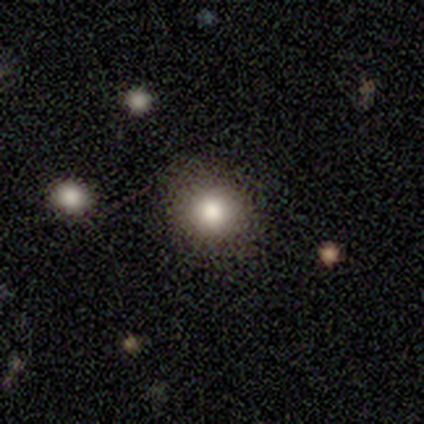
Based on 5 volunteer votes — A smooth galaxy with no disk features (80%) that is round (75%). Merging: none (100%).